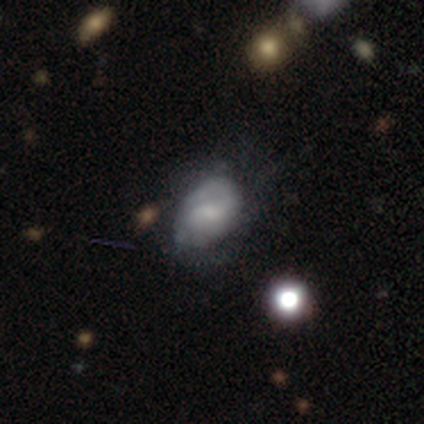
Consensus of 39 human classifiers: This appears to be a featured or disk galaxy (59%) with a weak bar (70%), 2 (48%) medium (48%) spiral arms (91%) and a small central bulge (39%). Merging: none (46%).